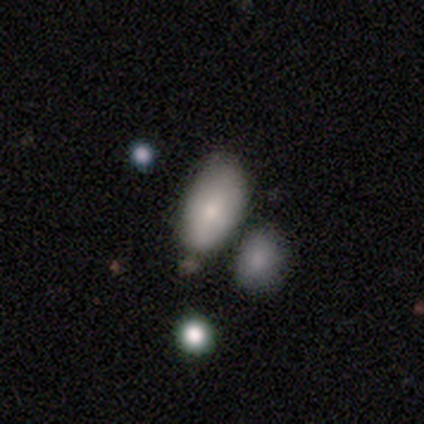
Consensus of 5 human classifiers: Smooth or featured?
  - smooth: 60% *
  - featured or disk: 40%
  - star or artifact: 0%
How rounded?
  - in between: 100% *
  - round: 0%
  - cigar-shaped: 0%
Merging?
  - none: 60% *
  - major disturbance: 20%
  - merger: 20%
  - minor disturbance: 0%